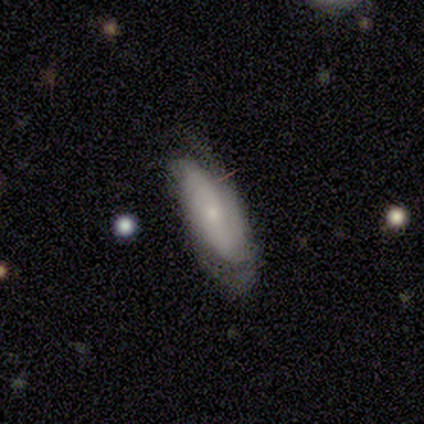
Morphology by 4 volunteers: Smooth or featured? 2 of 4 (50%) said star or artifact.